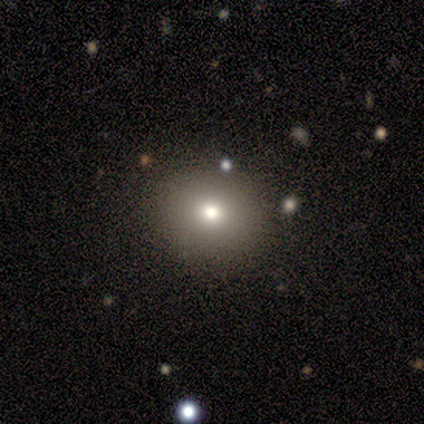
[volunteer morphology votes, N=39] Overall: smooth (77%). How rounded: round (73%). Merging: none (85%).